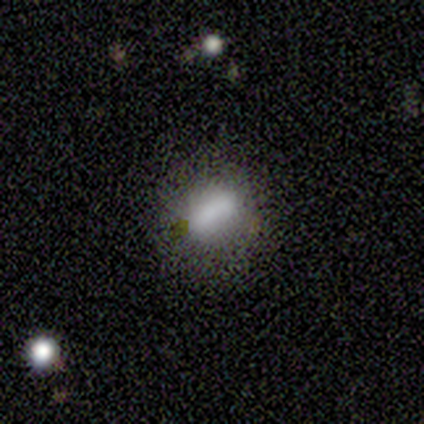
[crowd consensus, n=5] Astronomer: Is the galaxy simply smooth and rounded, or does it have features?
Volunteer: smooth — 80%.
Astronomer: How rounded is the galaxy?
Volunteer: round — 50%.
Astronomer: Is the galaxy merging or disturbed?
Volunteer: none — 100%.